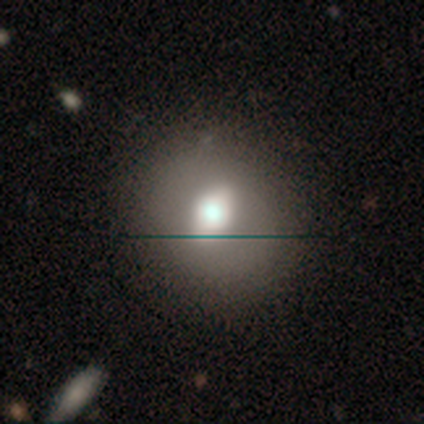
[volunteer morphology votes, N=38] smooth_or_featured: smooth (p=0.68) [alt: featured or disk p=0.18]
how_rounded: round (p=0.62) [alt: in between p=0.35]
merging: none (p=0.42) [alt: minor disturbance p=0.12]